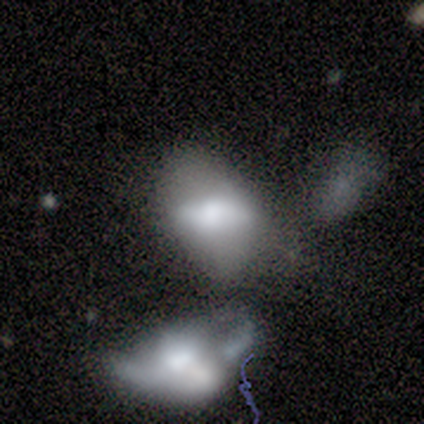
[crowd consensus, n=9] smooth_or_featured: featured or disk (p=0.56) [alt: smooth p=0.44]
disk_edge_on: no (p=1.00)
bar: no (p=0.80) [alt: weak p=0.20]
has_spiral_arms: no (p=1.00)
bulge_size: large (p=0.40) [alt: dominant p=0.20]
merging: merger (p=0.56) [alt: major disturbance p=0.22]